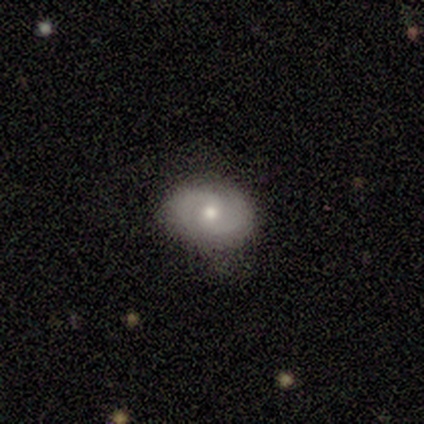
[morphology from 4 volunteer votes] A smooth galaxy with no disk features (50%, tied with featured or disk) that is round (50%, tied with in between). Merging: none (100%).